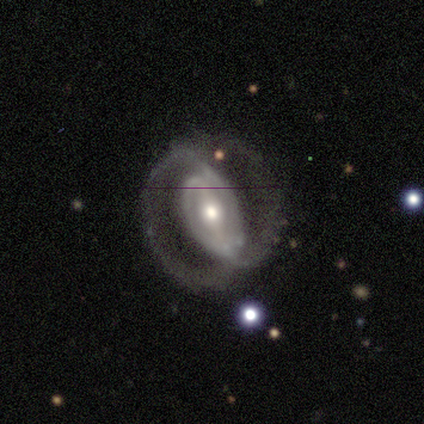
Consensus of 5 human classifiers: A featured or disk galaxy (100%) with a strong bar (60%), 2 (50%) medium (50%) spiral arms (80%) and a moderate central bulge (80%). Merging: none (60%).